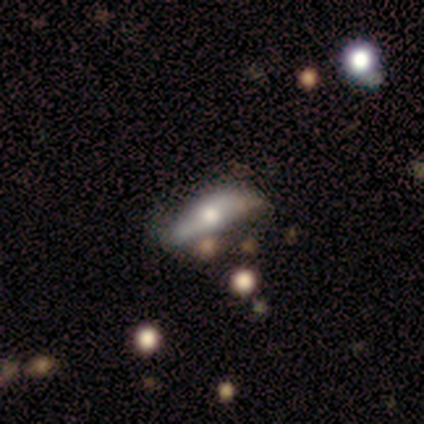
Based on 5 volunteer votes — Smooth or featured?
  - featured or disk: 80% *
  - smooth: 20%
  - star or artifact: 0%
Edge-on disk?
  - yes: 75% *
  - no: 25%
Edge-on bulge?
  - rounded: 67% *
  - boxy: 33%
  - none: 0%
Merging?
  - none: 60% *
  - minor disturbance: 40%
  - major disturbance: 0%
  - merger: 0%